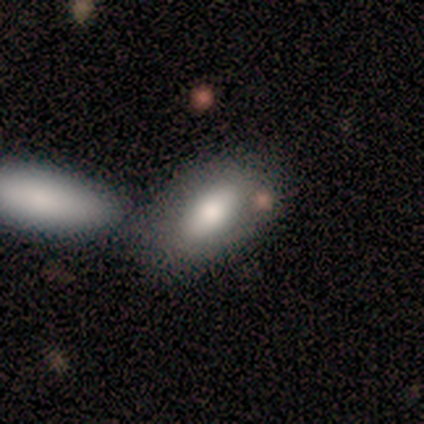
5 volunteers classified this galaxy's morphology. Volunteers were most divided on "merging": none: 60%, minor disturbance: 20%, merger: 20%, major disturbance: 0%. More confident: smooth or featured — smooth (100%); how rounded — in between (100%).